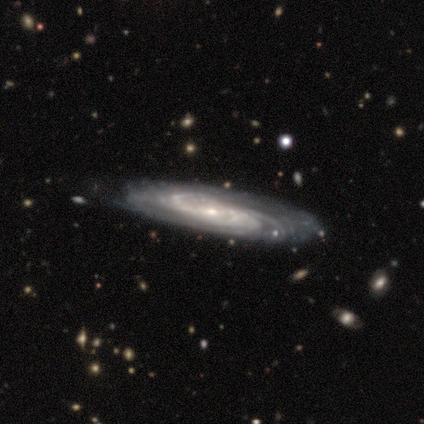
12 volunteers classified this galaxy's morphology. This appears to be a featured or disk galaxy (92%) with a weak bar (45%), medium (55%) spiral arms (100%) and a small central bulge (82%). Merging: none (75%).